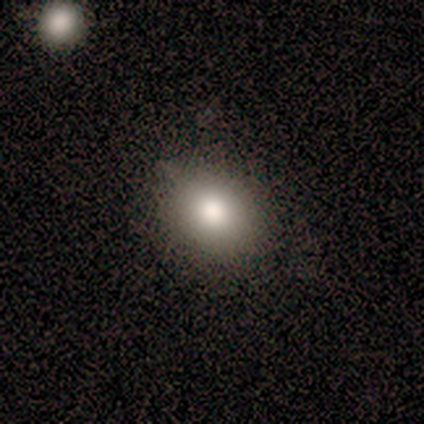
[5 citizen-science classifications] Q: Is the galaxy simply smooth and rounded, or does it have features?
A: smooth — 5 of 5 (100%).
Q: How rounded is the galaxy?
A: in between — 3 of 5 (60%).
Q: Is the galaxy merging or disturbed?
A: none — 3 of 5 (60%).